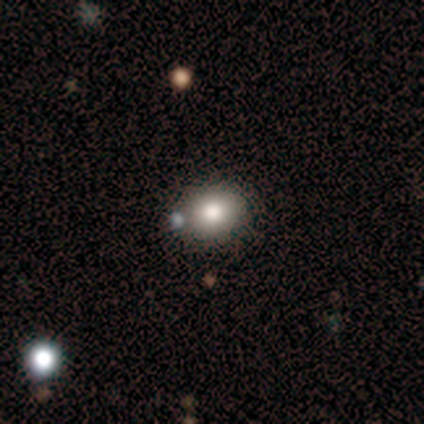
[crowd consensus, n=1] Morphology: type=featured or disk (100%); edge-on=no (100%); bar=no (100%); spiral arms=no (100%); bulge=large (100%); merging=none (100%).